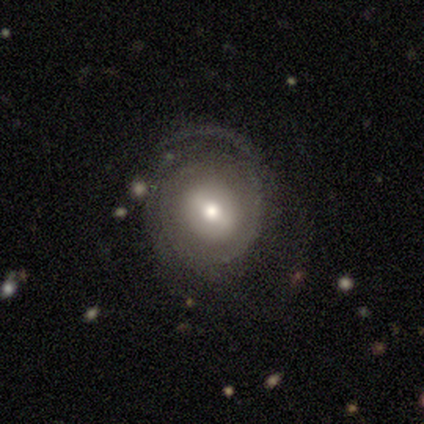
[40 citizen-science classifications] Smooth or featured: featured or disk — 62% (smooth — 30%)
Edge-on disk: no — 100%
Bar: weak — 52% (no — 36%)
Spiral arms: yes — 96% (no — 4%)
Spiral winding: tight — 54% (loose — 25%)
Spiral arm count: can't tell — 58% (2 — 17%)
Bulge size: moderate — 44% (large — 36%)
Merging: none — 59% (minor disturbance — 19%)